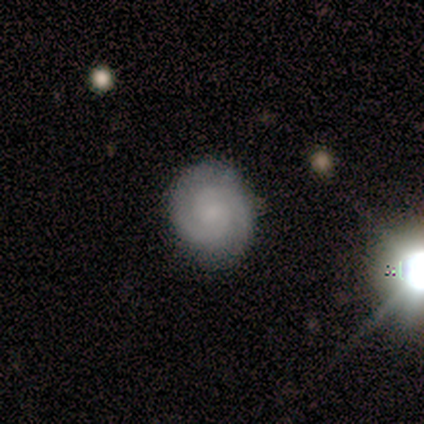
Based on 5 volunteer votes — Smooth or featured? 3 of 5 (60%) said featured or disk. Edge-on disk? 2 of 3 (67%) said no. Bar? 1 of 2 (50%, tied with no) said weak. Spiral arms? 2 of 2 (100%) said yes. Spiral winding? 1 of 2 (50%, tied with medium) said tight. Spiral arm count? 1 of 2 (50%, tied with 3) said 2. Bulge size? 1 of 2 (50%, tied with none) said moderate. Merging? 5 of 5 (100%) said none.